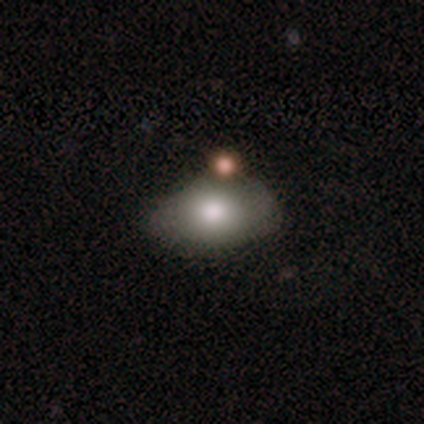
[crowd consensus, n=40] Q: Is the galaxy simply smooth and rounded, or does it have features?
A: smooth — 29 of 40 (72%).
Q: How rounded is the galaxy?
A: in between — 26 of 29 (90%).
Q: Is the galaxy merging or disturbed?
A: none — 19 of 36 (53%).